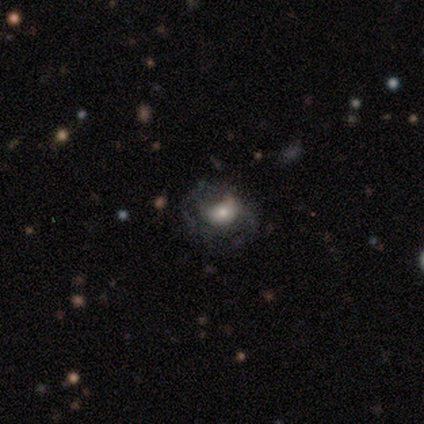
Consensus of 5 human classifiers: Q: Smooth or featured?
A: smooth (60%); runner-up: featured or disk (40%)
Q: How rounded?
A: in between (100%)
Q: Merging?
A: none (80%); runner-up: minor disturbance (20%)